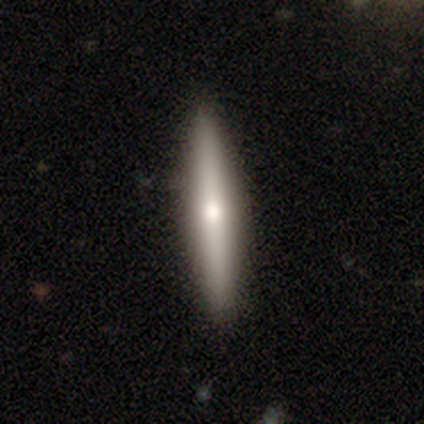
Smooth or featured? smooth (51%)
How rounded? cigar-shaped (100%)
Merging? none (90%)